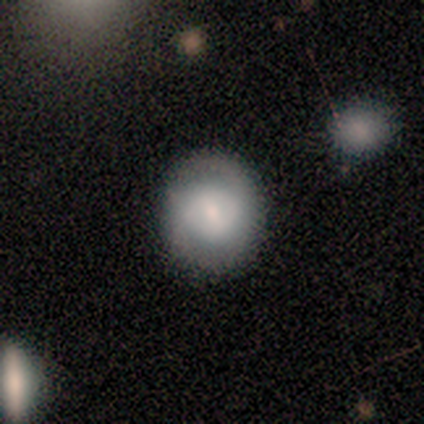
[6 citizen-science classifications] A featured or disk galaxy (67%) with a weak bar (75%), 2 (100%) tight (67%) spiral arms (75%) and a moderate central bulge (50%).

Vote fractions:
- Smooth or featured? featured or disk: 67% / smooth: 33% / star or artifact: 0%
- Edge-on disk? no: 100% / yes: 0%
- Bar? weak: 75% / no: 25% / strong: 0%
- Spiral arms? yes: 75% / no: 25%
- Spiral winding? tight: 67% / loose: 33% / medium: 0%
- Spiral arm count? 2: 100% / 1: 0% / 3: 0% / 4: 0% / more than 4: 0% / can't tell: 0%
- Bulge size? moderate: 50% / large: 25% / small: 25% / dominant: 0% / none: 0%
- Merging? none: 100% / minor disturbance: 0% / major disturbance: 0% / merger: 0%